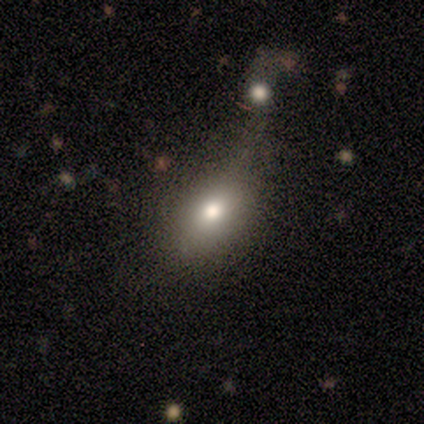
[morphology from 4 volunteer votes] smooth-or-featured: smooth: 100% | featured or disk: 0% | star or artifact: 0%
  how-rounded: in between: 75% | round: 25% | cigar-shaped: 0%
  merging: none: 50% | minor disturbance: 25% | major disturbance: 25% | merger: 0%